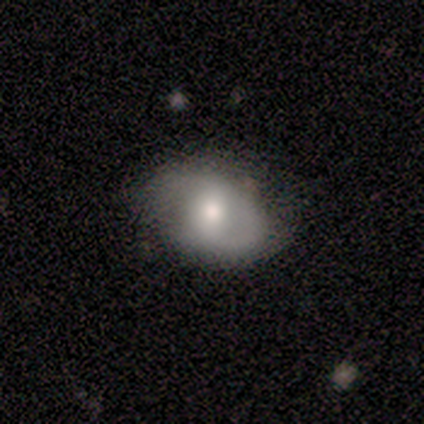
Smooth or featured? smooth (40%, tied with featured or disk)
How rounded? round (50%, tied with in between)
Merging? none (100%)